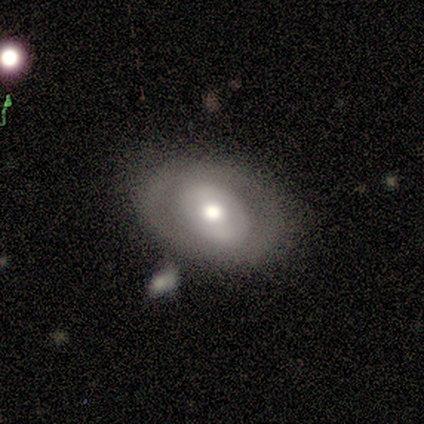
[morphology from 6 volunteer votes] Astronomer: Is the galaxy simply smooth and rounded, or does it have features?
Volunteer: featured or disk — 67%.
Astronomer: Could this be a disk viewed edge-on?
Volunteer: no — 100%.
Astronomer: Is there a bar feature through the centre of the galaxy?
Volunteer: weak — 50%, tied with no at 50%.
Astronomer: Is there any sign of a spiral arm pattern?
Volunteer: yes — 50%, tied with no at 50%.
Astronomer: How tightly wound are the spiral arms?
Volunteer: medium — 100%.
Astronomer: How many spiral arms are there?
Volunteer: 1 — 50%, tied with 2 at 50%.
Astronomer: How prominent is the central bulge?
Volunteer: moderate — 75%.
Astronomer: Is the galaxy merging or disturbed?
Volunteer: none — 67%.